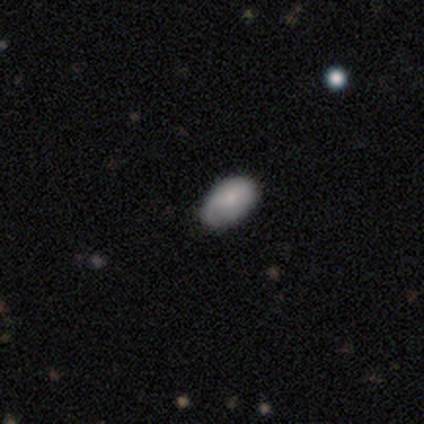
A smooth galaxy with no disk features (100%) that is in between round and cigar-shaped (75%). Merging: none (75%).